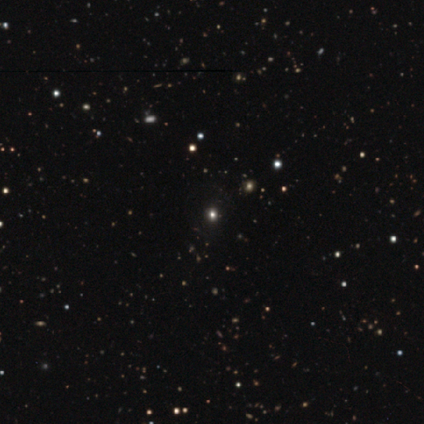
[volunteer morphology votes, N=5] Smooth or featured? star or artifact (60%)